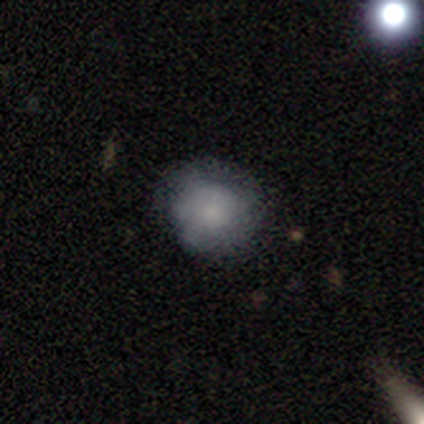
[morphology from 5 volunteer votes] A smooth galaxy with no disk features (60%) that is round (100%). Merging: none (75%).